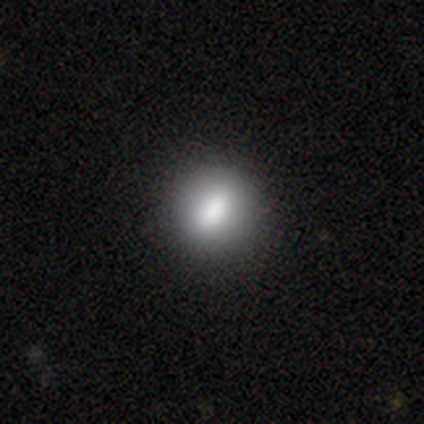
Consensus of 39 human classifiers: This appears to be a smooth galaxy with no disk features (82%) that is round (81%). Merging: none (94%).